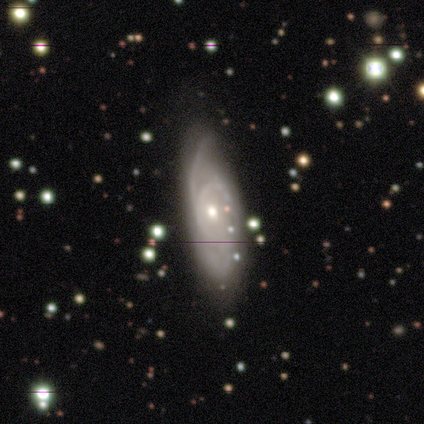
smooth-or-featured: featured or disk: 88% | smooth: 12% | star or artifact: 0%
  disk-edge-on: no: 100% | yes: 0%
    bar: no: 86% | weak: 14% | strong: 0%
    has-spiral-arms: yes: 100% | no: 0%
      spiral-winding: medium: 57% | loose: 29% | tight: 14%
      spiral-arm-count: 1: 29% (tied) | 2: 29% (tied) | 3: 29% (tied) | can't tell: 14% | 4: 0% | more than 4: 0%
    bulge-size: moderate: 57% | small: 43% | dominant: 0% | large: 0% | none: 0%
  merging: none: 50% | minor disturbance: 38% | major disturbance: 12% | merger: 0%